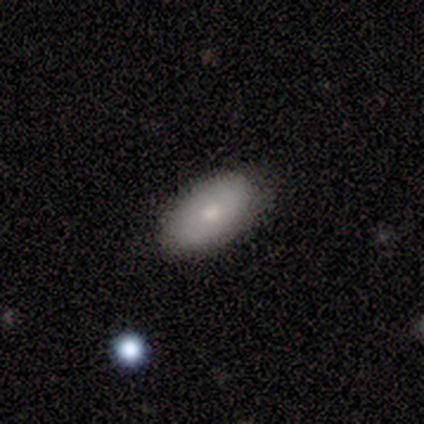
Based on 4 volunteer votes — Volunteers were most divided on "smooth or featured": smooth: 75%, featured or disk: 25%, star or artifact: 0%. More confident: how rounded — in between (100%); merging — none (100%).